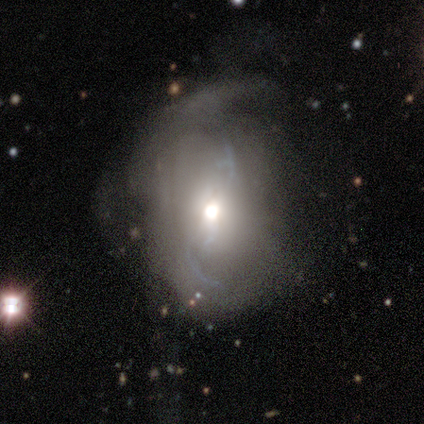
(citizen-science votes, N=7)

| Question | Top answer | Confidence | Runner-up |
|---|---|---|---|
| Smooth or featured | featured or disk | 71% | smooth (29%) |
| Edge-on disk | no | 100% | — |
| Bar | no | 60% | weak (40%) |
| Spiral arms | yes | 100% | — |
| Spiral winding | loose | 100% | — |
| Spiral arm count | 2 | 80% | 3 (20%) |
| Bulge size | moderate | 100% | — |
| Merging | none | 43% | minor disturbance (29%) |